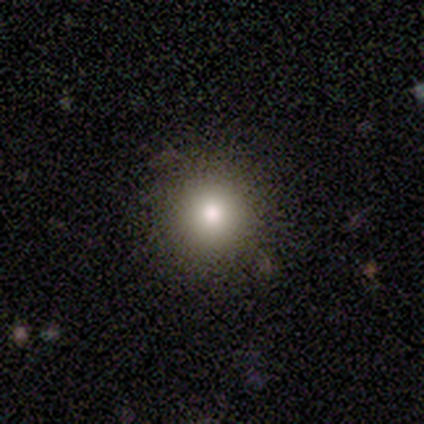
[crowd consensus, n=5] smooth-or-featured: smooth: 100% | featured or disk: 0% | star or artifact: 0%
  how-rounded: round: 80% | in between: 20% | cigar-shaped: 0%
  merging: none: 100% | minor disturbance: 0% | major disturbance: 0% | merger: 0%